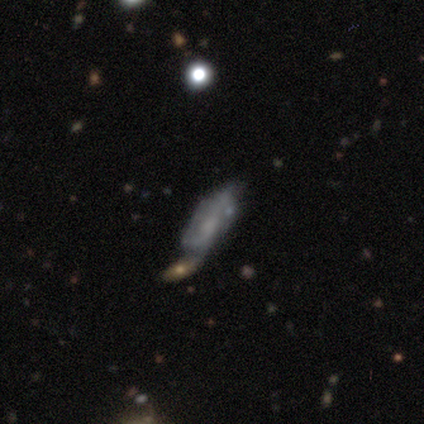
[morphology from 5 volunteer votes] smooth-or-featured: star or artifact: 60% | smooth: 40% | featured or disk: 0%